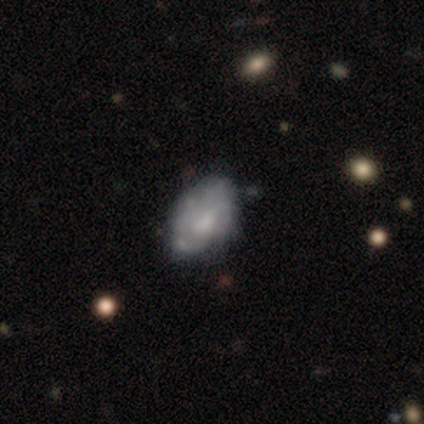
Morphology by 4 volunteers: Smooth or featured?
  - smooth: 50% * (tied)
  - featured or disk: 50% * (tied)
  - star or artifact: 0%
How rounded?
  - in between: 100% *
  - round: 0%
  - cigar-shaped: 0%
Merging?
  - none: 75% *
  - minor disturbance: 25%
  - major disturbance: 0%
  - merger: 0%